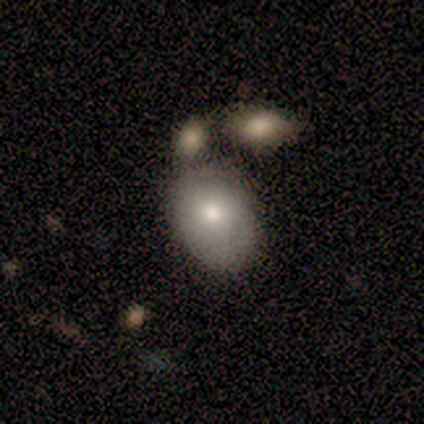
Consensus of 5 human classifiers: smooth 100%, featured or disk 0%, star or artifact 0%. Down the decision tree: how rounded — in between (100%); merging — none (40%, tied with minor disturbance).